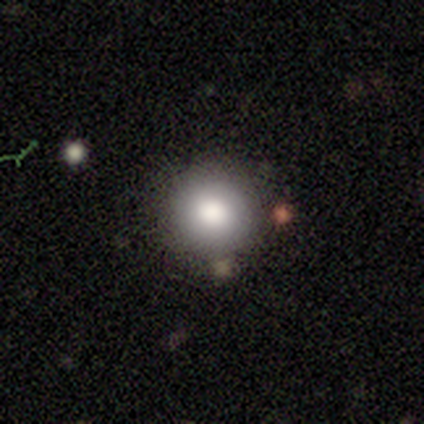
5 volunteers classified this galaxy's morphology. Smooth or featured? 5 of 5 (100%) said smooth. How rounded? 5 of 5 (100%) said round. Merging? 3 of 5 (60%) said none.